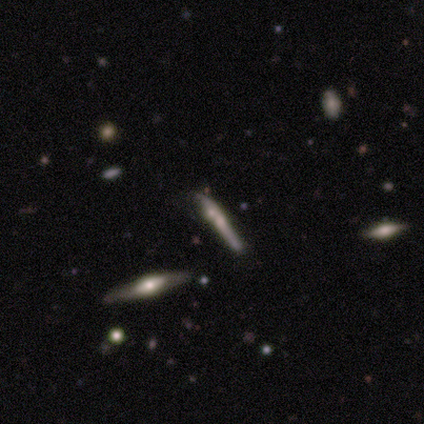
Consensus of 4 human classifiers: Smooth or featured? featured or disk (50%)
Edge-on disk? yes (100%)
Edge-on bulge? rounded (100%)
Merging? none (67%)